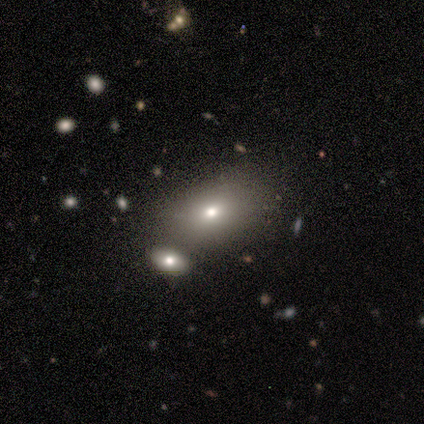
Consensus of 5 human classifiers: Smooth or featured: smooth — 40% (tied with star or artifact — 40%)
How rounded: in between — 100%
Merging: merger — 67% (none — 33%)